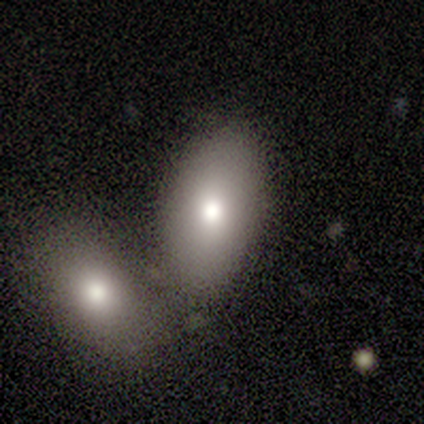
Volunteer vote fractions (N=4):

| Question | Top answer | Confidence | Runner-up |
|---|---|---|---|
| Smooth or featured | smooth | 75% | featured or disk (25%) |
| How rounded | in between | 100% | — |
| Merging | none | 50% | tied: merger (50%) |